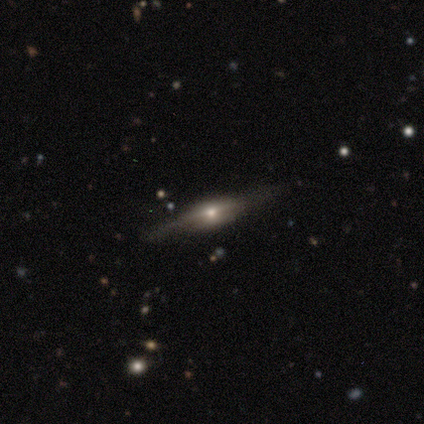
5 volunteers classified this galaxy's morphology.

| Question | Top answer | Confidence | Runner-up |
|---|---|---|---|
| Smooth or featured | featured or disk | 100% | — |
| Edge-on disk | yes | 100% | — |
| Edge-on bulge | rounded | 80% | boxy (20%) |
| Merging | none | 60% | minor disturbance (40%) |